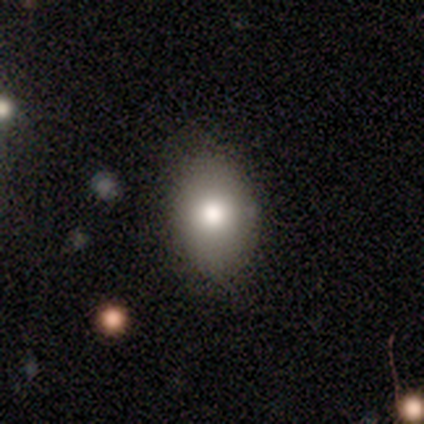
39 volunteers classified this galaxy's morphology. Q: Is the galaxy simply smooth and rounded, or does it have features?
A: smooth — 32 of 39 (82%).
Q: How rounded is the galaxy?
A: in between — 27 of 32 (84%).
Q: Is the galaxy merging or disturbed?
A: none — 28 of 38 (74%).